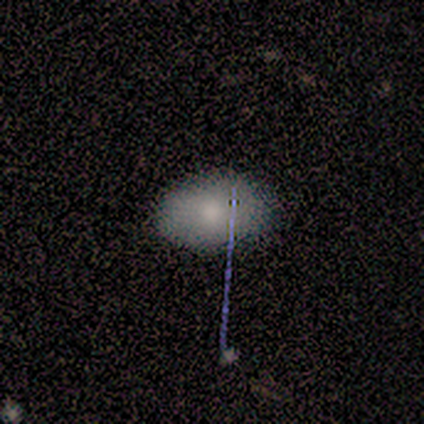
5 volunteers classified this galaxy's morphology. Overall: smooth (60%; featured or disk 40%). How rounded: in between (67%; round 33%). Merging: none (80%).